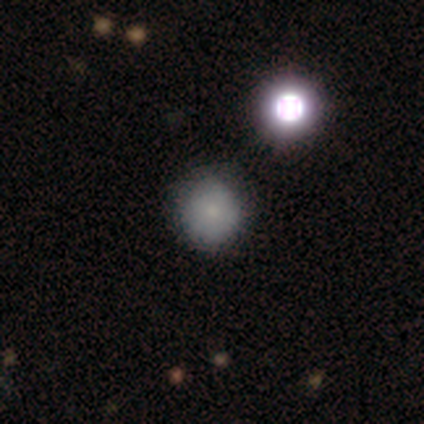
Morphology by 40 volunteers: smooth_or_featured: smooth (p=0.70) [alt: star or artifact p=0.20]
how_rounded: round (p=0.93) [alt: in between p=0.07]
merging: none (p=0.72) [alt: minor disturbance p=0.16]